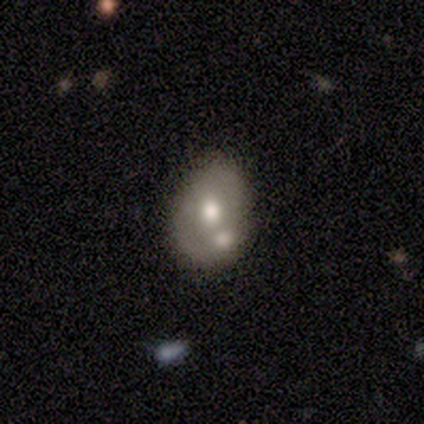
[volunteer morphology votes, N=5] smooth_or_featured: smooth (p=0.60) [alt: featured or disk p=0.40]
how_rounded: in between (p=0.67) [alt: round p=0.33]
merging: none (p=0.60) [alt: minor disturbance p=0.20]